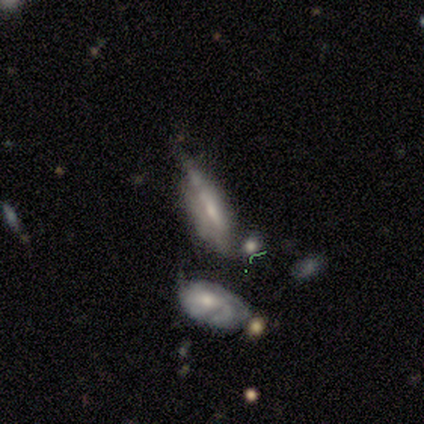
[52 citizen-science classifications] Smooth or featured? 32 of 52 (62%) said featured or disk. Edge-on disk? 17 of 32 (53%) said yes. Edge-on bulge? 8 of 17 (47%) said boxy. Merging? 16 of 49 (33%) said minor disturbance.